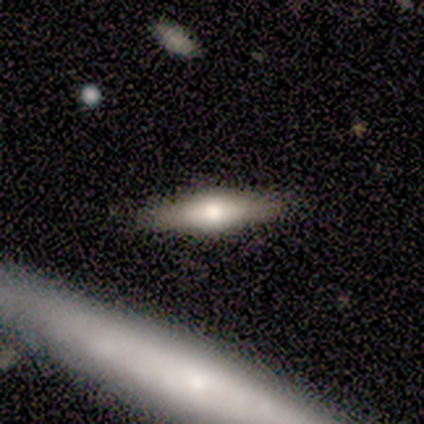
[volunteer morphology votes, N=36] Smooth or featured: featured or disk — 47% (smooth — 44%)
Edge-on disk: yes — 100%
Edge-on bulge: rounded — 82% (boxy — 18%)
Merging: none — 91% (minor disturbance — 9%)